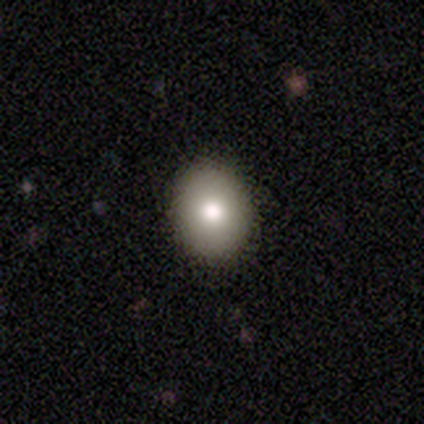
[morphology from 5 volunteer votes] Smooth or featured: smooth — 100%
How rounded: in between — 80% (round — 20%)
Merging: none — 100%